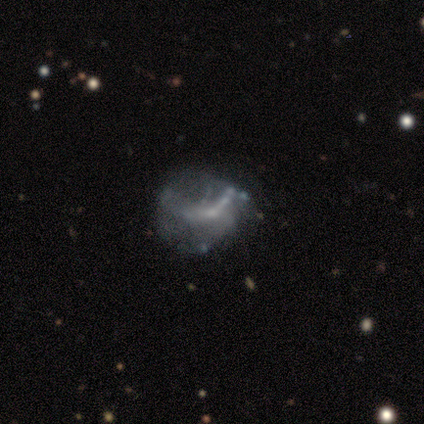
Smooth or featured?
  - smooth: 57% *
  - featured or disk: 43%
  - star or artifact: 0%
How rounded?
  - round: 75% *
  - in between: 25%
  - cigar-shaped: 0%
Merging?
  - minor disturbance: 57% *
  - none: 29%
  - major disturbance: 14%
  - merger: 0%